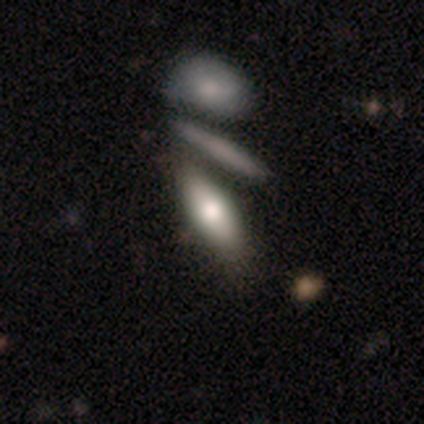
smooth_or_featured: smooth (p=0.79) [alt: featured or disk p=0.21]
how_rounded: in between (p=0.57) [alt: cigar-shaped p=0.43]
merging: merger (p=0.58)